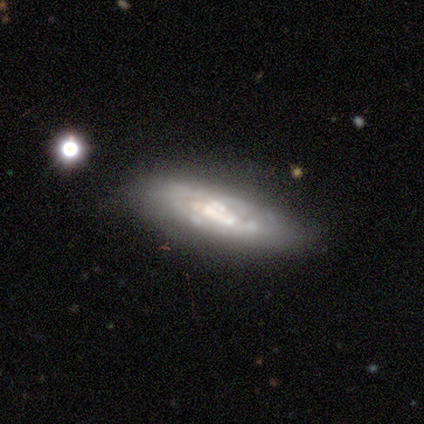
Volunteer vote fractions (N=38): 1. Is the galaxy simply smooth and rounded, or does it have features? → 61% featured or disk, 26% smooth, 13% star or artifact.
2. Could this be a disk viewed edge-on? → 87% no, 13% yes.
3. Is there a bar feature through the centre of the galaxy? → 70% no, 20% weak, 10% strong.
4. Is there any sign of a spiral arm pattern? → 55% no, 45% yes.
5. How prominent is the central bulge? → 40% large, 20% moderate, 20% none, 15% small, 5% dominant.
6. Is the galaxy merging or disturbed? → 64% none, 27% minor disturbance, 9% major disturbance, 0% merger.